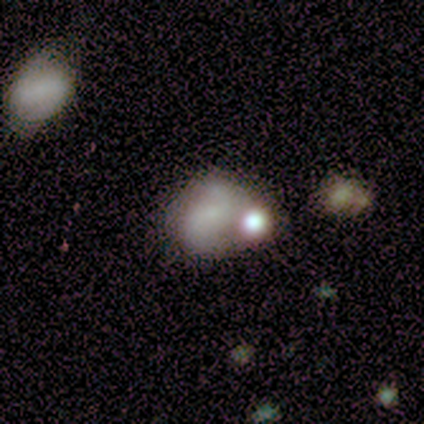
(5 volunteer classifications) A featured or disk galaxy (60%) with no bar (67%), 2 (100%) loose (67%) spiral arms (100%) and a moderate central bulge (67%).

Vote fractions:
- Smooth or featured? featured or disk: 60% / smooth: 40% / star or artifact: 0%
- Edge-on disk? no: 100% / yes: 0%
- Bar? no: 67% / weak: 33% / strong: 0%
- Spiral arms? yes: 100% / no: 0%
- Spiral winding? loose: 67% / medium: 33% / tight: 0%
- Spiral arm count? 2: 100% / 1: 0% / 3: 0% / 4: 0% / more than 4: 0% / can't tell: 0%
- Bulge size? moderate: 67% / none: 33% / dominant: 0% / large: 0% / small: 0%
- Merging? merger: 60% / none: 40% / minor disturbance: 0% / major disturbance: 0%